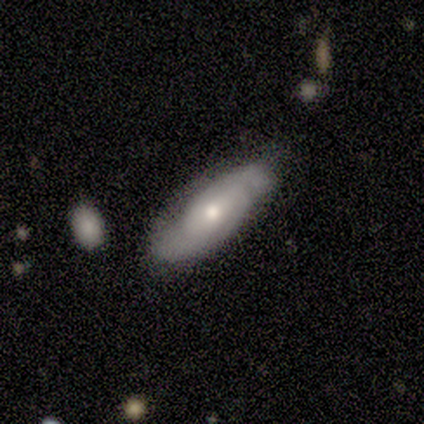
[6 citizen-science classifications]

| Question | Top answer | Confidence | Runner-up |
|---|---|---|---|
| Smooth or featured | featured or disk | 67% | smooth (33%) |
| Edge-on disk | no | 100% | — |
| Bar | weak | 50% | tied: no (50%) |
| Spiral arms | yes | 75% | no (25%) |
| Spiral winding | tight | 67% | medium (33%) |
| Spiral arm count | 2 | 67% | can't tell (33%) |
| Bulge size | moderate | 50% | tied: small (50%) |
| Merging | none | 67% | minor disturbance (33%) |